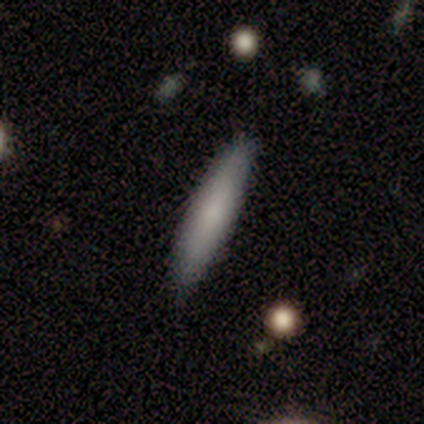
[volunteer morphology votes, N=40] smooth-or-featured: smooth: 72% | featured or disk: 25% | star or artifact: 2%
  how-rounded: cigar-shaped: 76% | in between: 24% | round: 0%
  merging: none: 85% | minor disturbance: 13% | major disturbance: 3% | merger: 0%